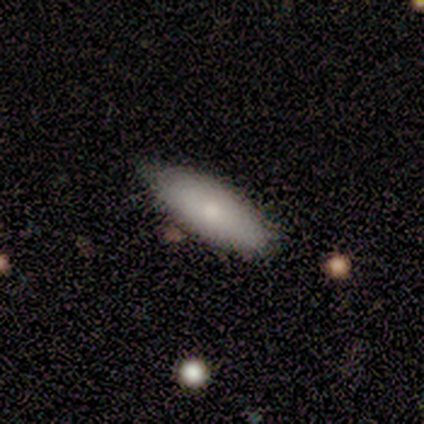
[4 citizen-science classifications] Smooth or featured?
  - smooth: 100% *
  - featured or disk: 0%
  - star or artifact: 0%
How rounded?
  - in between: 50% * (tied)
  - cigar-shaped: 50% * (tied)
  - round: 0%
Merging?
  - none: 100% *
  - minor disturbance: 0%
  - major disturbance: 0%
  - merger: 0%